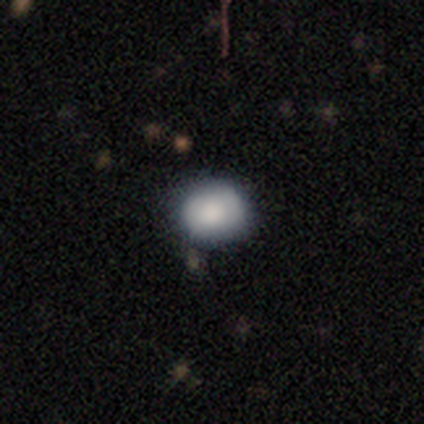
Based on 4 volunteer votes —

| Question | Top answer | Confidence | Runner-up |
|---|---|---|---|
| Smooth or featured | smooth | 100% | — |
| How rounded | round | 75% | in between (25%) |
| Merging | none | 75% | minor disturbance (25%) |